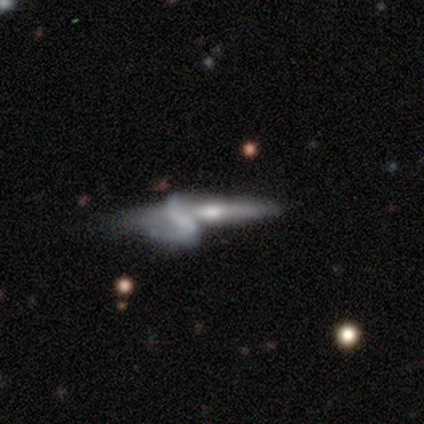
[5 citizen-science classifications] featured or disk 100%, smooth 0%, star or artifact 0%. Down the decision tree: edge-on disk — no (60%); bar — no (67%); spiral arms — yes (67%); spiral arm count — 1 (50%, tied with 2); spiral winding — loose (100%); bulge size — moderate (67%); merging — merger (60%).